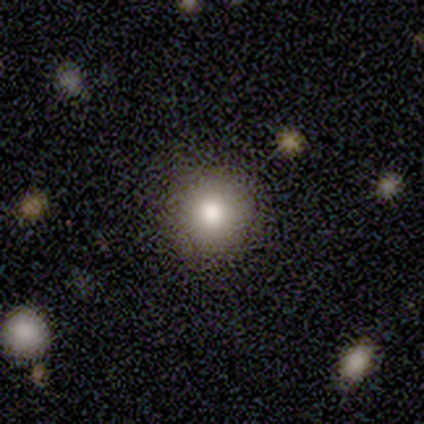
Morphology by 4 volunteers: type=smooth (75%); roundness=round (100%); merging=none (100%).